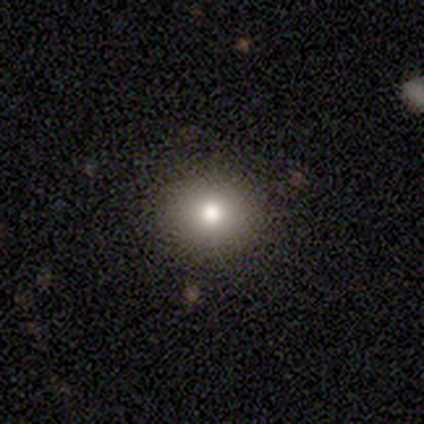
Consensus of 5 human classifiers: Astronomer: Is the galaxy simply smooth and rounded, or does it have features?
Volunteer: smooth — 80%.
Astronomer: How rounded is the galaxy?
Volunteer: round — 100%.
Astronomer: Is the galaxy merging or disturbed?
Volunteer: none — 100%.